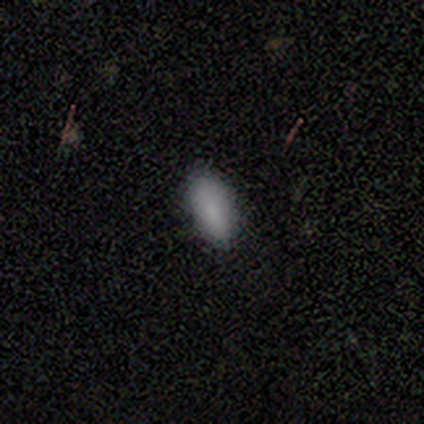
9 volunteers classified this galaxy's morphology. A smooth galaxy with no disk features (100%) that is in between round and cigar-shaped (89%).

Vote fractions:
- Smooth or featured? smooth: 100% / featured or disk: 0% / star or artifact: 0%
- How rounded? in between: 89% / round: 11% / cigar-shaped: 0%
- Merging? none: 78% / minor disturbance: 22% / major disturbance: 0% / merger: 0%